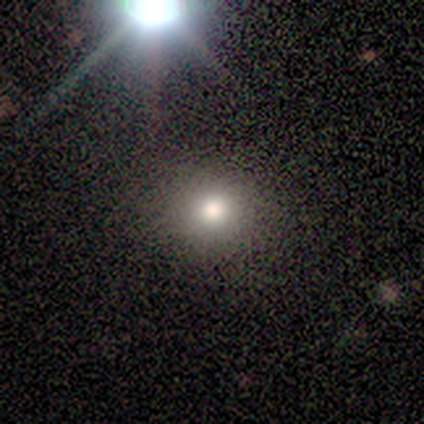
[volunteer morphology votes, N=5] Smooth or featured?
  - smooth: 40% * (tied)
  - featured or disk: 40% * (tied)
  - star or artifact: 20%
How rounded?
  - round: 100% *
  - in between: 0%
  - cigar-shaped: 0%
Merging?
  - none: 75% *
  - minor disturbance: 25%
  - major disturbance: 0%
  - merger: 0%